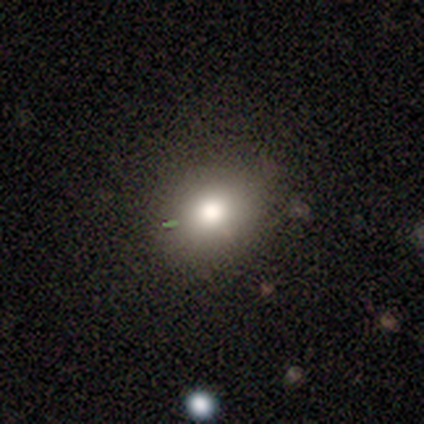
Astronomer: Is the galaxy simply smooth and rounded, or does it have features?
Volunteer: smooth — 80%.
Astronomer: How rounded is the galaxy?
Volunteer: in between — 75%.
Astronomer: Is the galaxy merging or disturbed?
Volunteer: none — 80%.